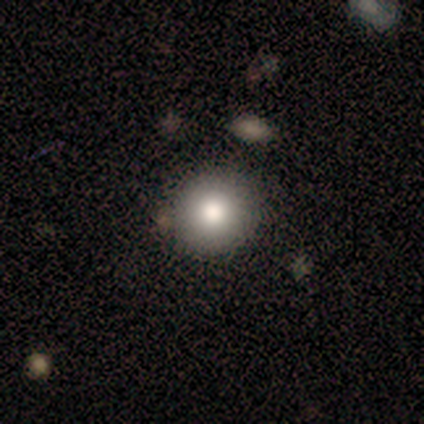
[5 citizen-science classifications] Overall: smooth (80%). How rounded: round (100%). Merging: none (100%).